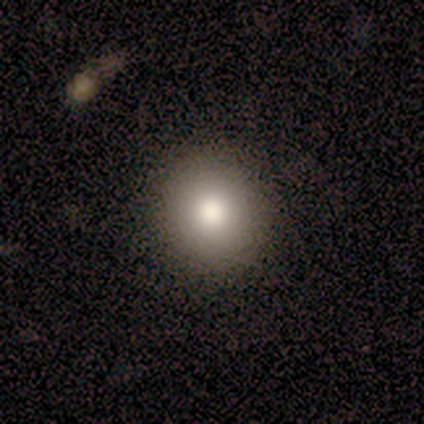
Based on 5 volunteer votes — smooth 100%, featured or disk 0%, star or artifact 0%. Down the decision tree: how rounded — round (80%); merging — none (100%).